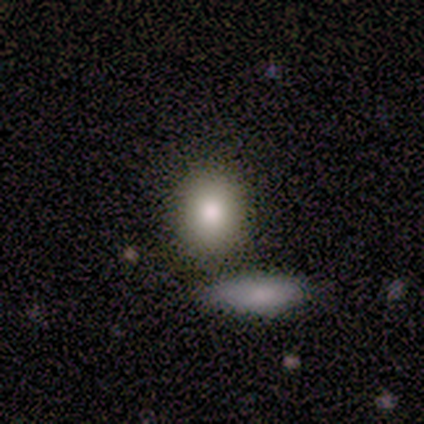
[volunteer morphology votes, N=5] Smooth or featured: smooth — 100%
How rounded: in between — 60% (round — 40%)
Merging: none — 80% (minor disturbance — 20%)